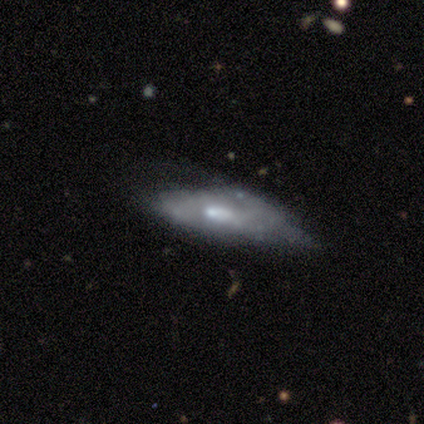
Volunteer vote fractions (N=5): A smooth galaxy with no disk features (80%) that is in between round and cigar-shaped (75%).

Vote fractions:
- Smooth or featured? smooth: 80% / featured or disk: 20% / star or artifact: 0%
- How rounded? in between: 75% / cigar-shaped: 25% / round: 0%
- Merging? none: 60% / minor disturbance: 20% / major disturbance: 20% / merger: 0%